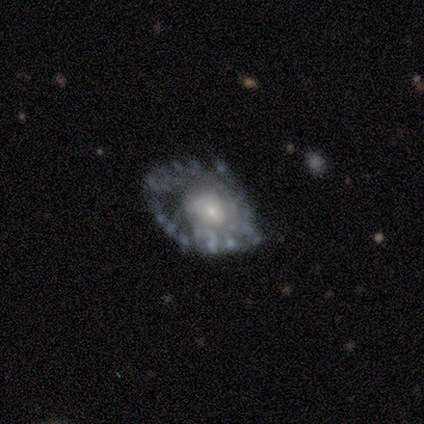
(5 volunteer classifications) Morphology: type=featured or disk (100%); edge-on=no (100%); bar=no (80%); spiral arms=no (60%); bulge=moderate (60%); merging=minor disturbance (40%, tied with major disturbance).